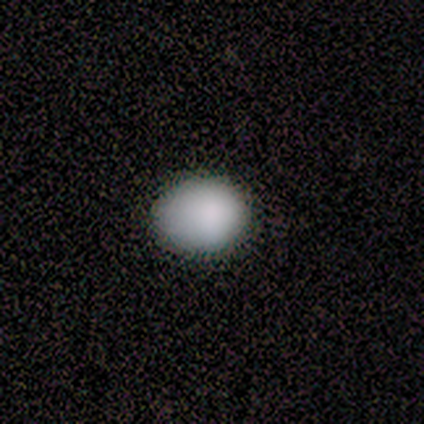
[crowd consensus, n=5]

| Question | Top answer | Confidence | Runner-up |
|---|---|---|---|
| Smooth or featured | smooth | 80% | featured or disk (20%) |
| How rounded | round | 50% | tied: in between (50%) |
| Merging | none | 80% | minor disturbance (20%) |